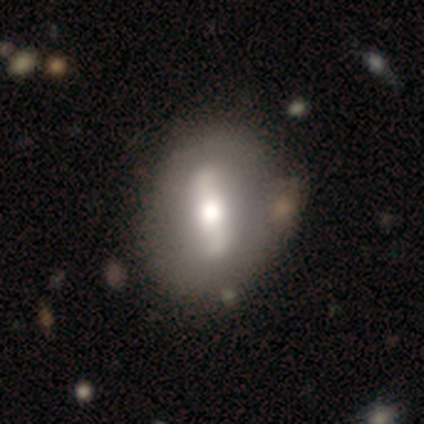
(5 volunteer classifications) Smooth or featured?
  - featured or disk: 80% *
  - smooth: 20%
  - star or artifact: 0%
Edge-on disk?
  - no: 100% *
  - yes: 0%
Bar?
  - strong: 100% *
  - weak: 0%
  - no: 0%
Spiral arms?
  - no: 75% *
  - yes: 25%
Bulge size?
  - moderate: 50% *
  - large: 25%
  - small: 25%
  - dominant: 0%
  - none: 0%
Merging?
  - none: 80% *
  - minor disturbance: 20%
  - major disturbance: 0%
  - merger: 0%